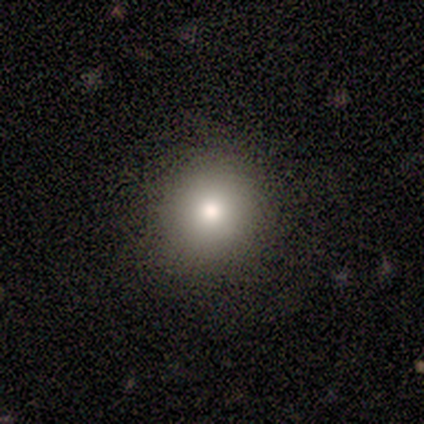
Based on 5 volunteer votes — smooth-or-featured: smooth: 60% | star or artifact: 40% | featured or disk: 0%
  how-rounded: round: 100% | in between: 0% | cigar-shaped: 0%
  merging: none: 100% | minor disturbance: 0% | major disturbance: 0% | merger: 0%